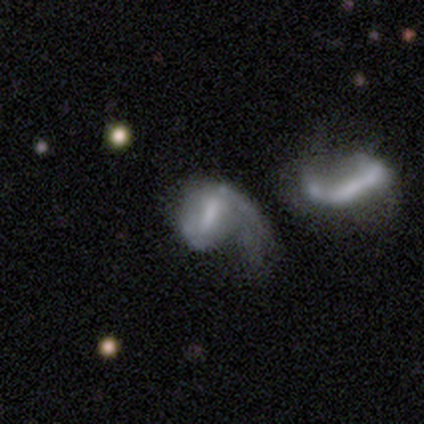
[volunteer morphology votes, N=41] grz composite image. It shows a featured or disk galaxy (73%) with a strong bar (50%), 1 (70%) loose (57%) spiral arms (77%) and no central bulge (47%). Merging: major disturbance (39%).